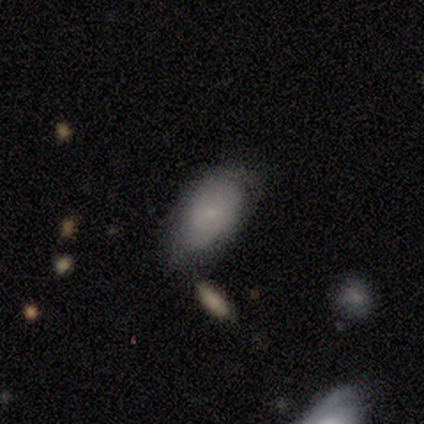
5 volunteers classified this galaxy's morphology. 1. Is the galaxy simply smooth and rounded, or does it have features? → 40% smooth (tied), 40% star or artifact (tied), 20% featured or disk.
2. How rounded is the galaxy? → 100% in between, 0% round, 0% cigar-shaped.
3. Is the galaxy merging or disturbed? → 100% none, 0% minor disturbance, 0% major disturbance, 0% merger.